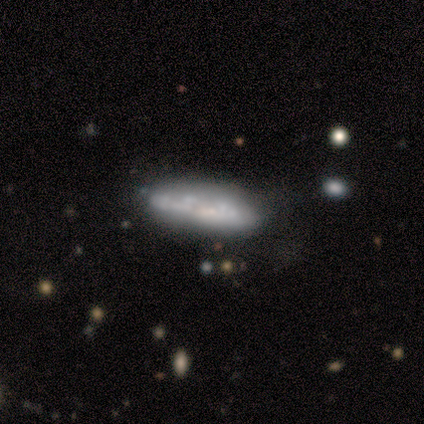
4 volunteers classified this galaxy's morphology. type=smooth (50%, tied with featured or disk); roundness=in between (50%, tied with cigar-shaped); merging=none (75%).